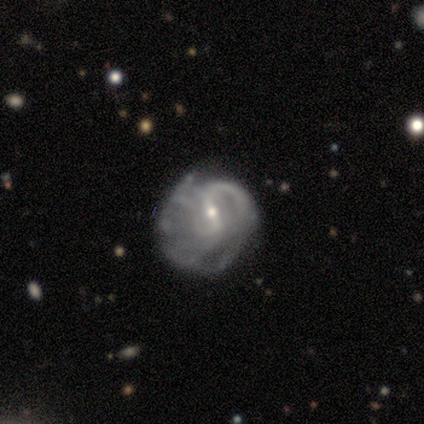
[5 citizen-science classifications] Q: Smooth or featured?
A: featured or disk (60%); runner-up: smooth (20%)
Q: Edge-on disk?
A: no (100%)
Q: Bar?
A: weak (67%); runner-up: strong (33%)
Q: Spiral arms?
A: yes (100%)
Q: Spiral winding?
A: medium (67%); runner-up: tight (33%)
Q: Spiral arm count?
A: 1 (33%); tied with: more than 4 (33%); can't tell (33%)
Q: Bulge size?
A: small (67%); runner-up: moderate (33%)
Q: Merging?
A: none (50%); tied with: minor disturbance (50%)